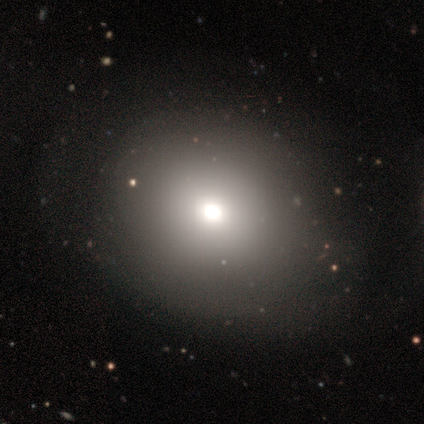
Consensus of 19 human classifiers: Smooth or featured: smooth — 84% (star or artifact — 11%)
How rounded: round — 62% (in between — 38%)
Merging: none — 35% (minor disturbance — 6%)